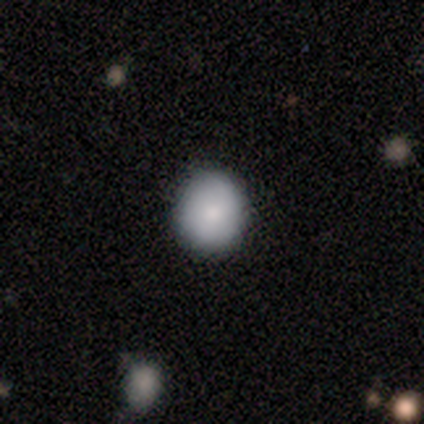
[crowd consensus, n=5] Overall: smooth (100%). How rounded: round (100%). Merging: none (80%).